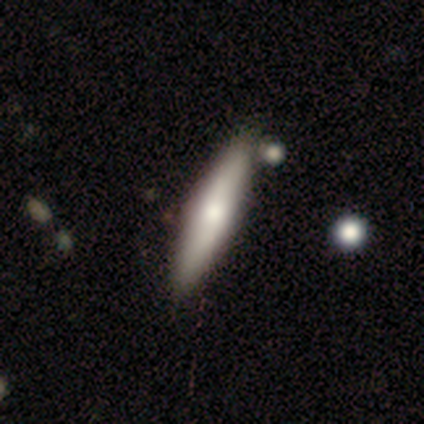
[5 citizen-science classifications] Morphology: type=smooth (60%); roundness=cigar-shaped (100%); merging=none (100%).